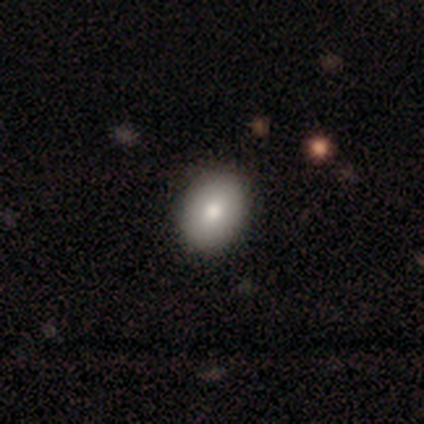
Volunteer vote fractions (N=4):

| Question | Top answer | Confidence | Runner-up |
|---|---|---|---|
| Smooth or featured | smooth | 75% | featured or disk (25%) |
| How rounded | in between | 100% | — |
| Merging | none | 100% | — |